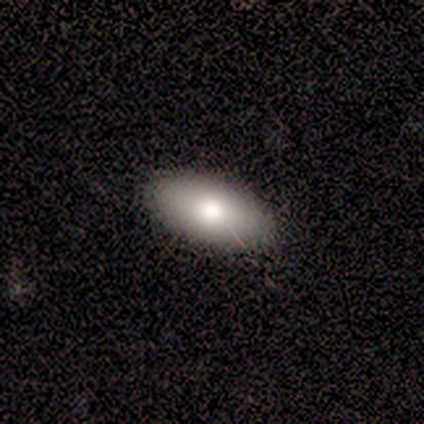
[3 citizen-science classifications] Smooth or featured? 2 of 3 (67%) said smooth. How rounded? 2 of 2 (100%) said in between. Merging? 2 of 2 (100%) said none.